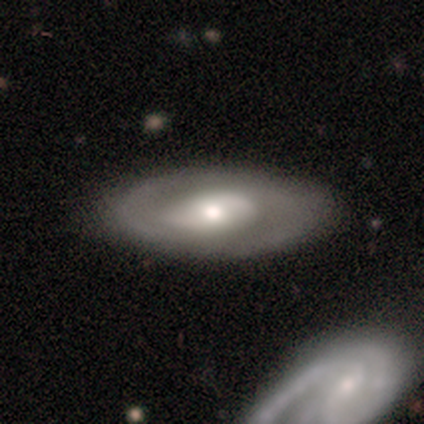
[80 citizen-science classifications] smooth_or_featured: featured or disk (p=0.69) [alt: smooth p=0.26]
disk_edge_on: no (p=0.91) [alt: yes p=0.09]
bar: no (p=0.60) [alt: weak p=0.26]
has_spiral_arms: yes (p=0.68) [alt: no p=0.32]
spiral_winding: medium (p=0.56) [alt: tight p=0.24]
spiral_arm_count: 2 (p=0.79) [alt: can't tell p=0.12]
bulge_size: moderate (p=0.68) [alt: small p=0.16]
merging: none (p=0.41) [alt: merger p=0.11]